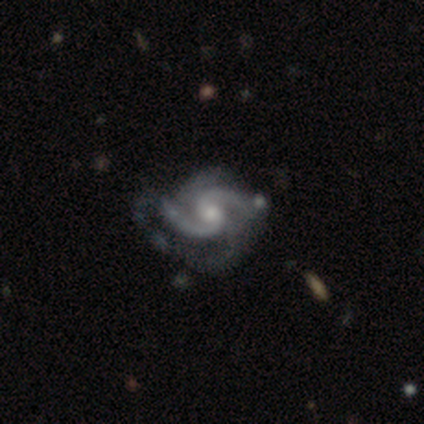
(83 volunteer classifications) Q: Smooth or featured?
A: featured or disk (95%); runner-up: star or artifact (4%)
Q: Edge-on disk?
A: no (95%); runner-up: yes (5%)
Q: Bar?
A: no (60%); runner-up: weak (40%)
Q: Spiral arms?
A: yes (99%); runner-up: no (1%)
Q: Spiral winding?
A: medium (64%); runner-up: loose (22%)
Q: Spiral arm count?
A: 2 (69%); runner-up: 4 (16%)
Q: Bulge size?
A: moderate (63%); runner-up: small (35%)
Q: Merging?
A: none (50%); runner-up: minor disturbance (28%)